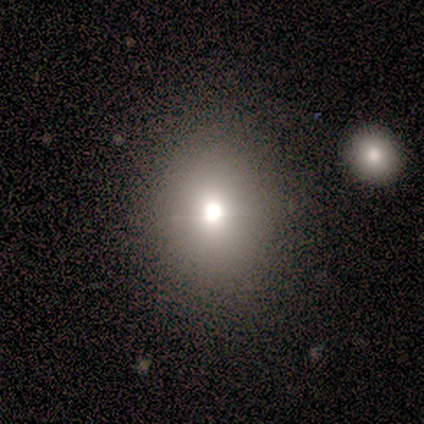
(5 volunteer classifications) This is clearly a smooth galaxy (80%). How rounded: possibly round (50%). Merging: likely none (75%).